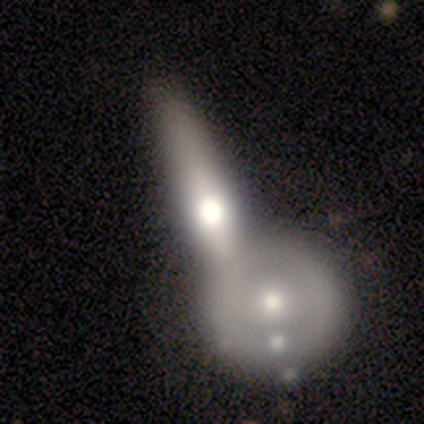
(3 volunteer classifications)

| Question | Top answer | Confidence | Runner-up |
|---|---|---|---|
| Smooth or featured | smooth | 67% | featured or disk (33%) |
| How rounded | cigar-shaped | 100% | — |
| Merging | merger | 67% | none (33%) |